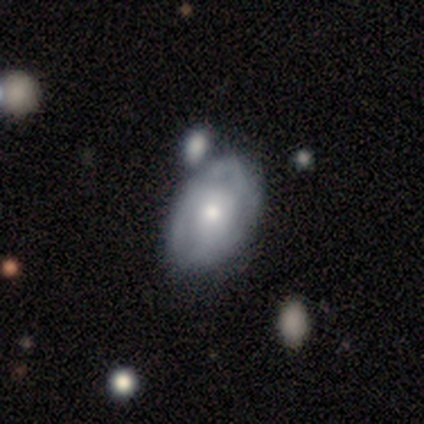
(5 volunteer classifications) smooth_or_featured: featured or disk (p=0.80) [alt: smooth p=0.20]
disk_edge_on: no (p=1.00)
bar: no (p=1.00)
has_spiral_arms: yes (p=0.75) [alt: no p=0.25]
spiral_winding: tight (p=0.67) [alt: medium p=0.33]
spiral_arm_count: can't tell (p=0.67) [alt: 2 p=0.33]
bulge_size: small (p=1.00)
merging: none (p=0.80) [alt: merger p=0.20]